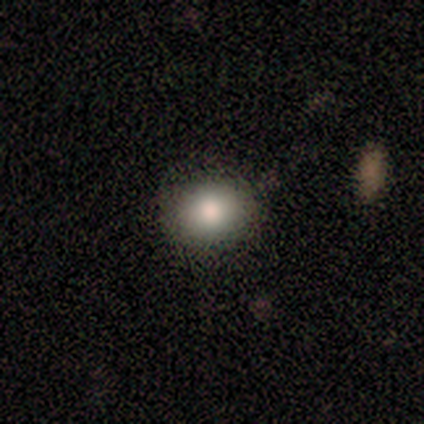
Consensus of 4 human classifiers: smooth-or-featured: smooth: 75% | star or artifact: 25% | featured or disk: 0%
  how-rounded: round: 67% | in between: 33% | cigar-shaped: 0%
  merging: none: 100% | minor disturbance: 0% | major disturbance: 0% | merger: 0%